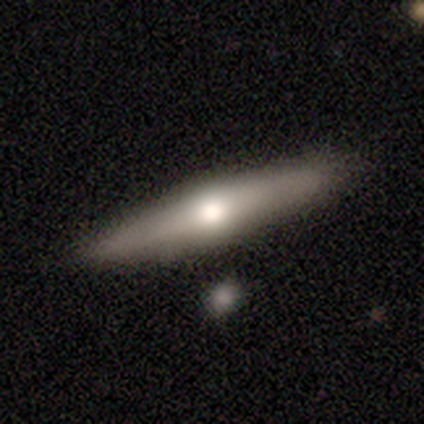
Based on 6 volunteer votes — Q: Smooth or featured?
A: featured or disk (67%); runner-up: smooth (33%)
Q: Edge-on disk?
A: yes (100%)
Q: Edge-on bulge?
A: rounded (100%)
Q: Merging?
A: none (67%); runner-up: minor disturbance (17%)